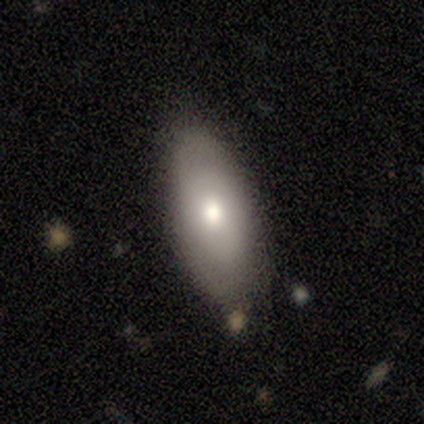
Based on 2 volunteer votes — A smooth galaxy with no disk features (100%) that is in between round and cigar-shaped (100%).

Vote fractions:
- Smooth or featured? smooth: 100% / featured or disk: 0% / star or artifact: 0%
- How rounded? in between: 100% / round: 0% / cigar-shaped: 0%
- Merging? none: 100% / minor disturbance: 0% / major disturbance: 0% / merger: 0%